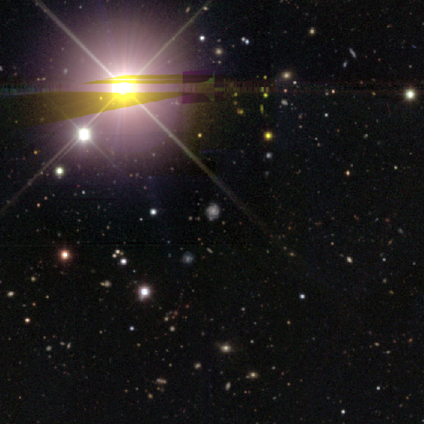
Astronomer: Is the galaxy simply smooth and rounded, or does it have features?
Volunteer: star or artifact — 80%.